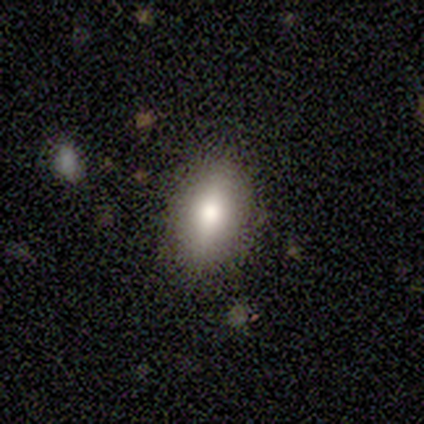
A smooth galaxy with no disk features (100%) that is in between round and cigar-shaped (100%).

Vote fractions:
- Smooth or featured? smooth: 100% / featured or disk: 0% / star or artifact: 0%
- How rounded? in between: 100% / round: 0% / cigar-shaped: 0%
- Merging? none: 60% / minor disturbance: 20% / major disturbance: 20% / merger: 0%